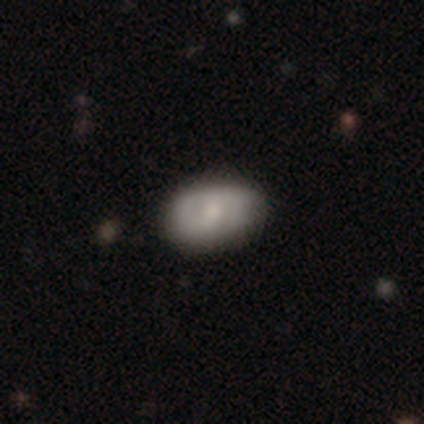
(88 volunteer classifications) Smooth or featured? 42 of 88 (48%) said smooth. How rounded? 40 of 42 (95%) said in between. Merging? 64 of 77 (83%) said none.